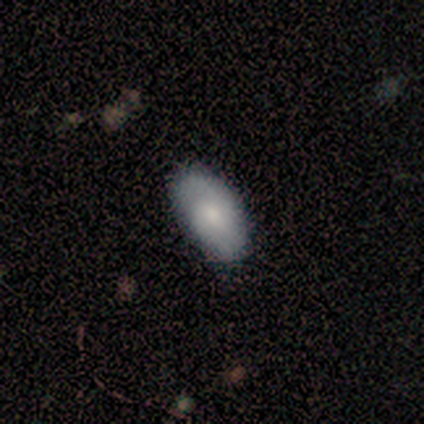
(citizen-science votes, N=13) Overall: smooth (77%). How rounded: in between (100%). Merging: none (85%).